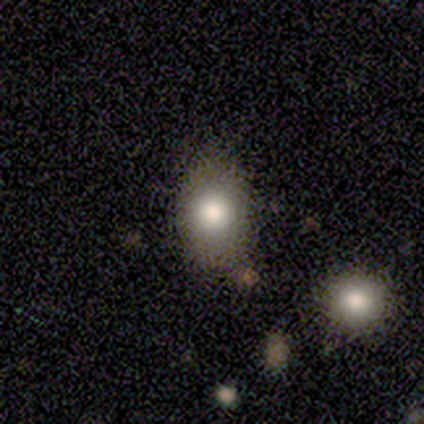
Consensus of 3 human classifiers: Morphology: type=smooth (100%); roundness=in between (67%); merging=none (100%).